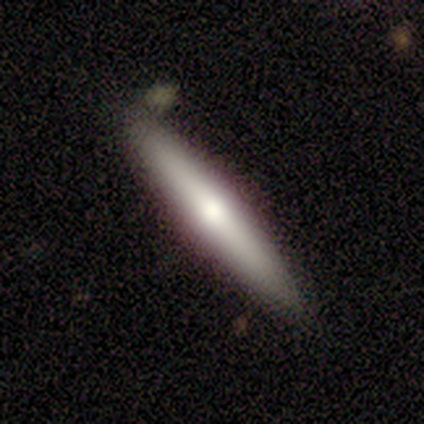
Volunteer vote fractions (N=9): Smooth or featured: smooth — 89% (featured or disk — 11%)
How rounded: cigar-shaped — 100%
Merging: none — 100%